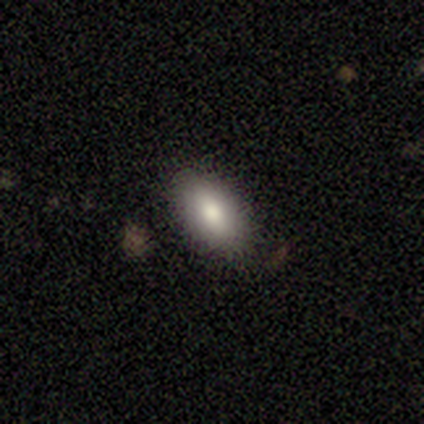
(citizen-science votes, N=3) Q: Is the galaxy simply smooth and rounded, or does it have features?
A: smooth — 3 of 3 (100%).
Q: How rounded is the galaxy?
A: in between — 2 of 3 (67%).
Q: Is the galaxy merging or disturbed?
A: none — 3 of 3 (100%).